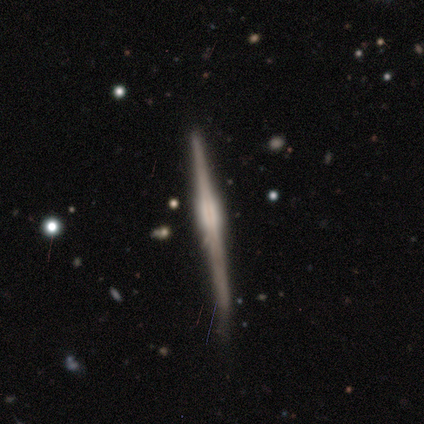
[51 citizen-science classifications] Morphology: type=featured or disk (84%); edge-on=yes (100%); edge-on bulge=boxy (63%); merging=none (68%).